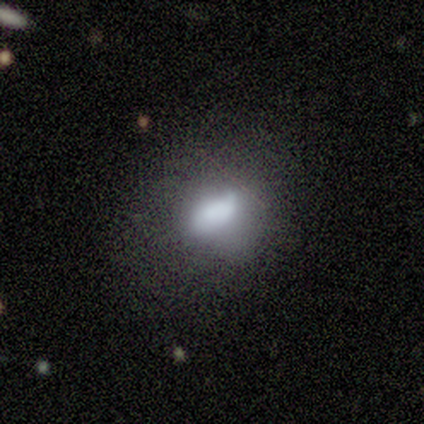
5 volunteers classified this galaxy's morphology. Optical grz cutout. It shows a smooth galaxy with no disk features (40%, tied with featured or disk) that is in between round and cigar-shaped (100%). Merging: minor disturbance (50%).